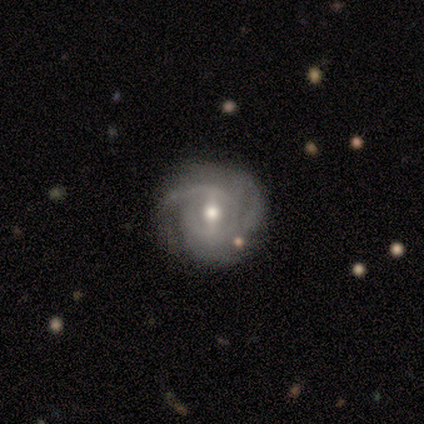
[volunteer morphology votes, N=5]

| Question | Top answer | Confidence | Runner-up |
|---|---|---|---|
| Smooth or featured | featured or disk | 100% | — |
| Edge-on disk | no | 100% | — |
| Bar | strong | 40% | tied: weak (40%) |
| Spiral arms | yes | 60% | no (40%) |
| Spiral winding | tight | 67% | medium (33%) |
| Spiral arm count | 2 | 33% | tied: 3 (33%), can't tell (33%) |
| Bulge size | moderate | 100% | — |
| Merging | none | 60% | minor disturbance (40%) |